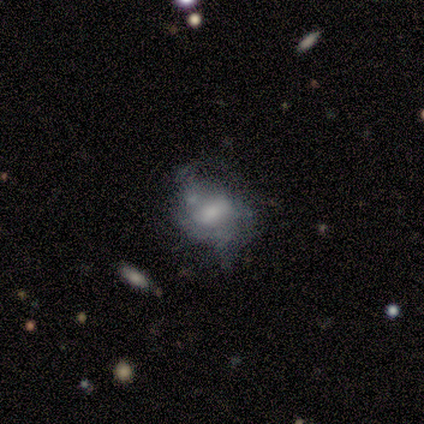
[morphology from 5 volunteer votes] Smooth or featured: featured or disk — 60% (smooth — 40%)
Edge-on disk: no — 100%
Bar: no — 67% (weak — 33%)
Spiral arms: yes — 67% (no — 33%)
Spiral winding: tight — 100%
Spiral arm count: 1 — 50% (tied with 3 — 50%)
Bulge size: large — 33% (tied with moderate — 33%; small — 33%)
Merging: none — 40% (minor disturbance — 20%)